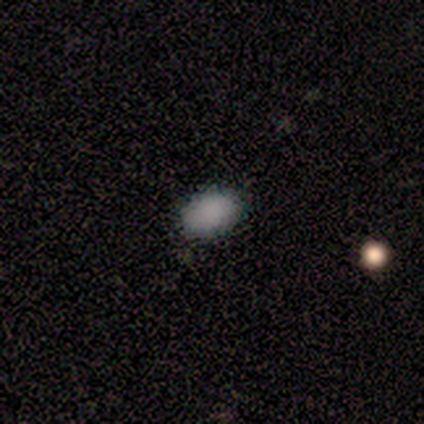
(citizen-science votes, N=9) Volunteers were most divided on "merging": none: 89%, minor disturbance: 11%, major disturbance: 0%, merger: 0%. More confident: smooth or featured — smooth (100%); how rounded — in between (100%).